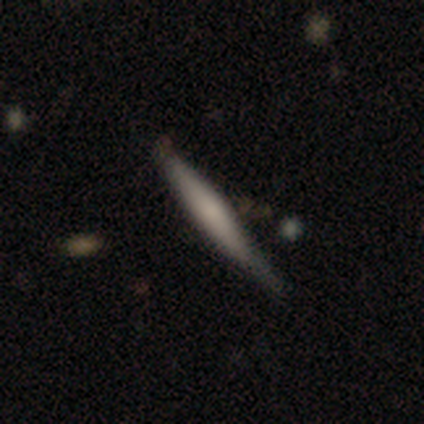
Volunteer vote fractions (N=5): Q: Smooth or featured?
A: featured or disk (60%); runner-up: smooth (40%)
Q: Edge-on disk?
A: yes (100%)
Q: Edge-on bulge?
A: rounded (100%)
Q: Merging?
A: minor disturbance (60%); runner-up: none (40%)